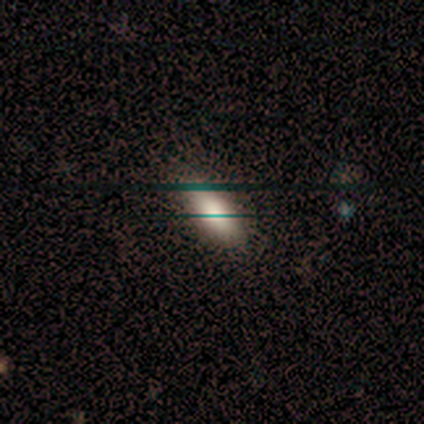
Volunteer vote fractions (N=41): Smooth or featured?
  - smooth: 85% *
  - featured or disk: 10%
  - star or artifact: 5%
How rounded?
  - in between: 86% *
  - cigar-shaped: 14%
  - round: 0%
Merging?
  - none: 85% *
  - minor disturbance: 13%
  - major disturbance: 3%
  - merger: 0%